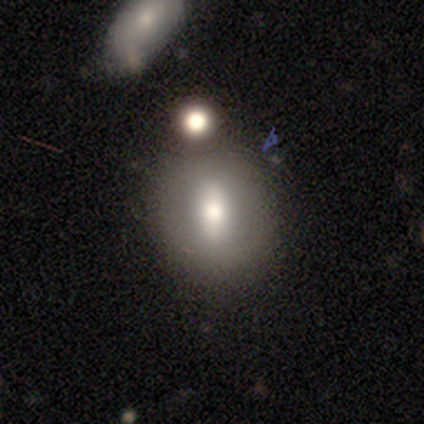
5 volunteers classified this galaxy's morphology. Overall: smooth (80%). How rounded: round (50%, tied with in between). Merging: none (60%; major disturbance 40%).